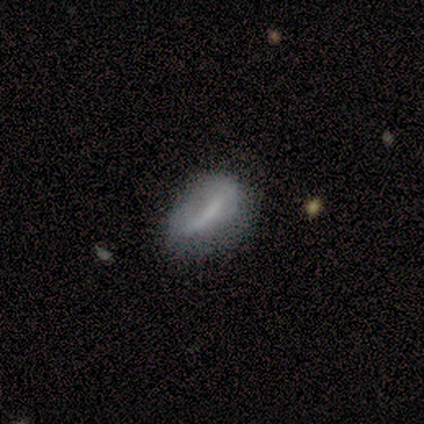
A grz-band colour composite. It shows a smooth galaxy with no disk features (67%) that is in between round and cigar-shaped (100%). Merging: none (67%).